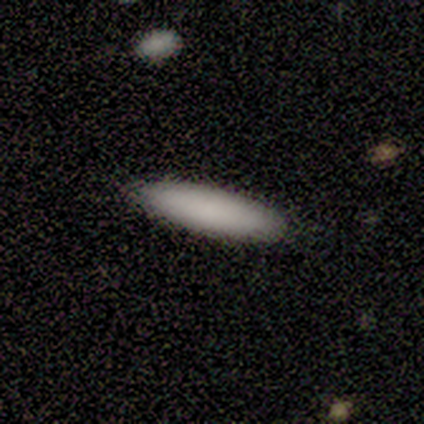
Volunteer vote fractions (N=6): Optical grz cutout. It shows a smooth galaxy with no disk features (100%) that is in between round and cigar-shaped (83%). Merging: none (100%).